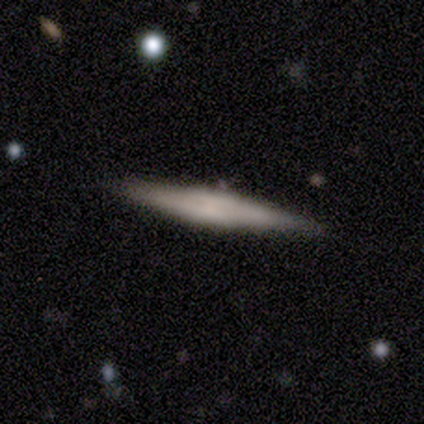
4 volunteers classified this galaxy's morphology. Overall: featured or disk (50%; smooth 25%). Edge-on disk: yes (100%). Edge-on bulge: rounded (100%). Merging: none (67%; minor disturbance 33%).